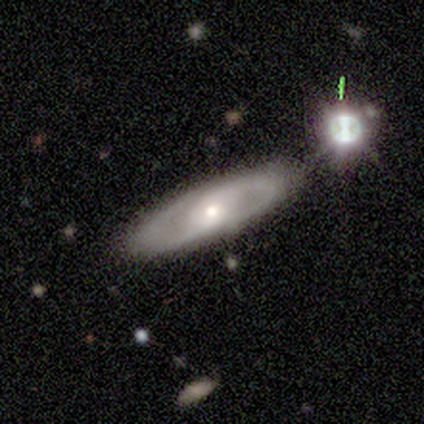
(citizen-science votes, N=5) Smooth or featured? featured or disk (100%)
Edge-on disk? no (80%)
Bar? weak (50%, tied with no)
Spiral arms? yes (100%)
Spiral winding? medium (75%)
Spiral arm count? 2 (100%)
Bulge size? small (75%)
Merging? none (80%)